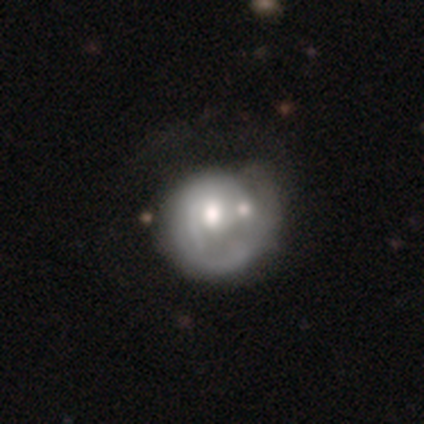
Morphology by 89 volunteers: Smooth or featured? featured or disk (63%)
Edge-on disk? no (91%)
Bar? no (84%)
Spiral arms? yes (69%)
Spiral winding? tight (49%)
Spiral arm count? 1 (51%)
Bulge size? moderate (78%)
Merging? merger (31%)